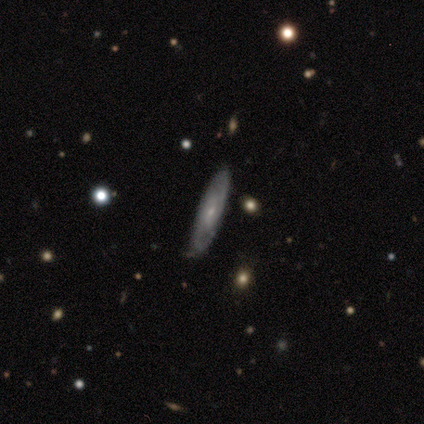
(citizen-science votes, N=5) A featured or disk galaxy (80%) with no bar (100%), 2 (50%) medium (75%) spiral arms (100%) and a moderate central bulge (50%, tied with small). Merging: none (80%).